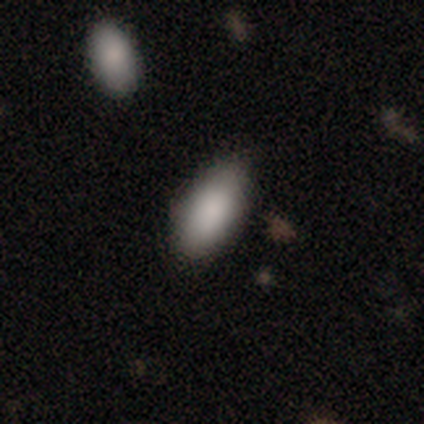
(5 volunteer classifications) This appears to be a smooth galaxy with no disk features (100%) that is in between round and cigar-shaped (100%). Merging: none (60%).